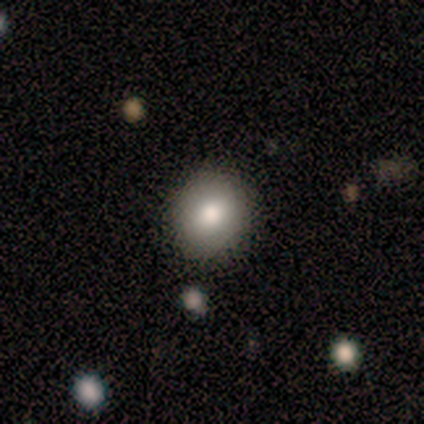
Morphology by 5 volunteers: Smooth or featured: smooth — 100%
How rounded: round — 80% (in between — 20%)
Merging: none — 60% (minor disturbance — 20%)